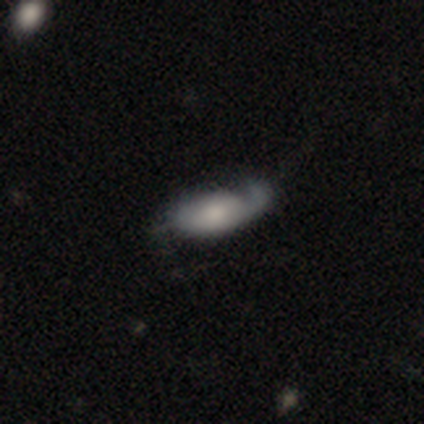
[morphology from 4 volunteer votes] Smooth or featured? featured or disk (75%)
Edge-on disk? no (67%)
Bar? no (100%)
Spiral arms? yes (100%)
Spiral winding? tight (50%, tied with loose)
Spiral arm count? 1 (50%, tied with 2)
Bulge size? small (100%)
Merging? minor disturbance (75%)